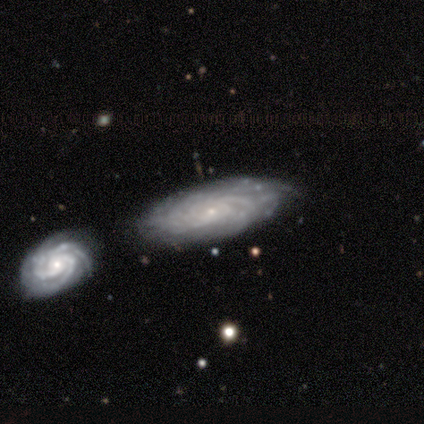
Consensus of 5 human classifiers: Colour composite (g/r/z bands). It shows a featured or disk galaxy (80%) with no bar (50%), 2 (25%, tied with 3, 4 and can't tell) tight (50%, tied with medium) spiral arms (100%) and a small central bulge (100%). Merging: none (80%).